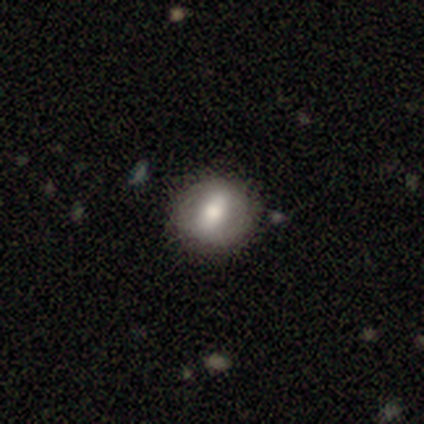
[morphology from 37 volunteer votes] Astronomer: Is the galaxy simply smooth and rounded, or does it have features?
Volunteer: smooth — 54% (runner-up: featured or disk, 38%).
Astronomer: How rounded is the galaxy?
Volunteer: round — 85%.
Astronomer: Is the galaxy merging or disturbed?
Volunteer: none — 94%.